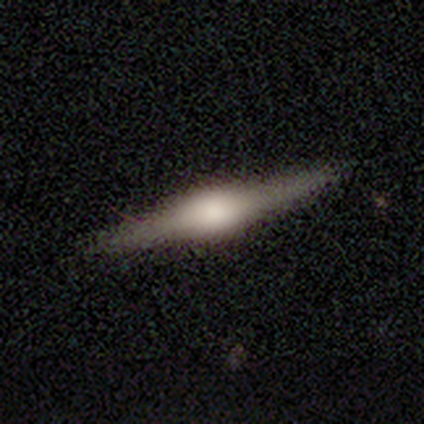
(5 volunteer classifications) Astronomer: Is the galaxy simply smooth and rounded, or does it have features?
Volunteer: featured or disk — 60% (runner-up: smooth, 40%).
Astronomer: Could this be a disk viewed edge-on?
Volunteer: yes — 100%.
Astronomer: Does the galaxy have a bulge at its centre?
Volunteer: rounded — 67%.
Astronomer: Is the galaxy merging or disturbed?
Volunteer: none — 100%.